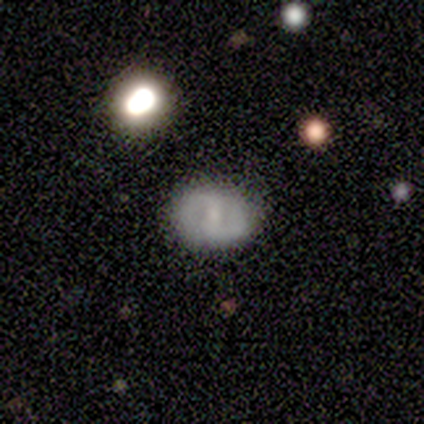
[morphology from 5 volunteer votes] featured or disk 60%, smooth 40%, star or artifact 0%. Down the decision tree: edge-on disk — no (100%); bar — weak (67%); spiral arms — yes (100%); spiral arm count — 2 (67%); spiral winding — tight (67%); bulge size — small (100%); merging — none (100%).